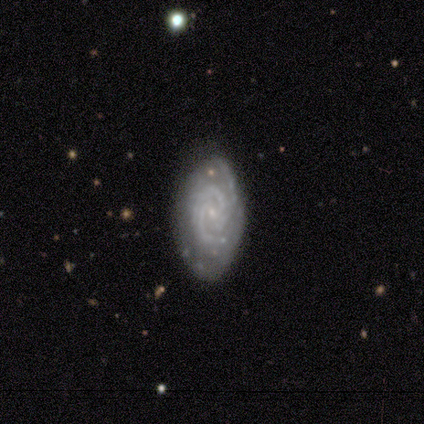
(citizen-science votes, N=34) This is clearly a featured or disk galaxy (85%). It is clearly not viewed edge-on (97%). Bar: possibly no (54%). Spiral arm pattern: clearly yes (100%). Spiral arm count: likely 3 (61%). Spiral winding: possibly tight (54%). Central bulge: clearly small (96%). Merging: likely none (70%).